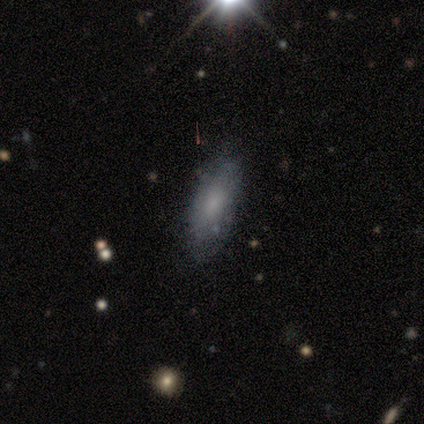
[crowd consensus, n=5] Smooth or featured: smooth — 60% (featured or disk — 40%)
How rounded: in between — 100%
Merging: none — 80% (merger — 20%)